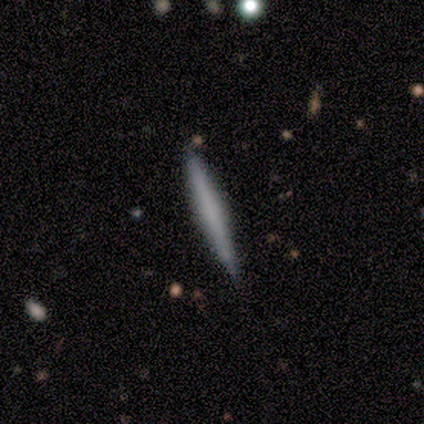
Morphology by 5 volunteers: A featured or disk galaxy (80%) viewed edge-on (100%) with a rounded central bulge (75%). Merging: none (80%).